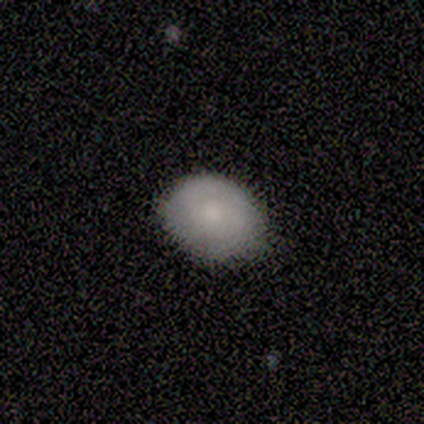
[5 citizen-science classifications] Smooth or featured? 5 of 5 (100%) said smooth. How rounded? 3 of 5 (60%) said round. Merging? 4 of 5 (80%) said none.